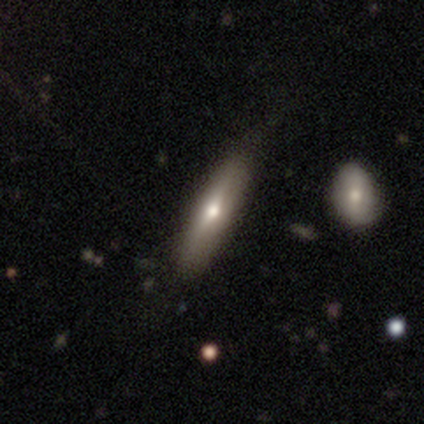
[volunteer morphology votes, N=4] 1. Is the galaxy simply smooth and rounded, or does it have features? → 75% featured or disk, 25% smooth, 0% star or artifact.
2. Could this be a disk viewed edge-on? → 100% yes, 0% no.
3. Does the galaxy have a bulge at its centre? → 100% rounded, 0% boxy, 0% none.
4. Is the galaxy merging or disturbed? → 50% minor disturbance, 25% none, 25% merger, 0% major disturbance.